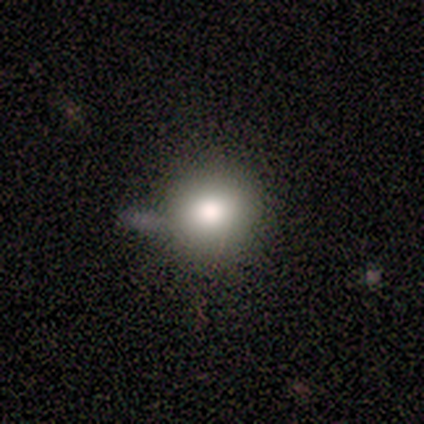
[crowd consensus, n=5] Volunteers were most divided on "smooth or featured": smooth: 60%, featured or disk: 20%, star or artifact: 20%. More confident: how rounded — round (100%); merging — none (75%).